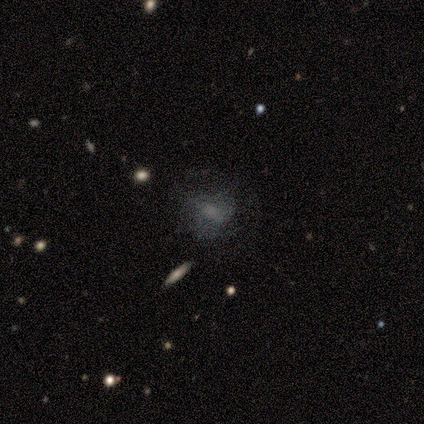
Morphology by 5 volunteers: Volunteers were most divided on "smooth or featured": featured or disk: 60%, star or artifact: 40%, smooth: 0%. More confident: edge-on disk — no (100%); bar — no (67%); spiral arms — no (67%); bulge size — small (67%); merging — major disturbance (67%).